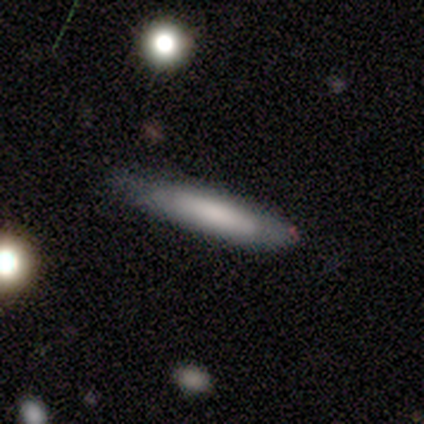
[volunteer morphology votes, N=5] A smooth galaxy with no disk features (100%) that is cigar-shaped (100%).

Vote fractions:
- Smooth or featured? smooth: 100% / featured or disk: 0% / star or artifact: 0%
- How rounded? cigar-shaped: 100% / round: 0% / in between: 0%
- Merging? none: 80% / minor disturbance: 20% / major disturbance: 0% / merger: 0%